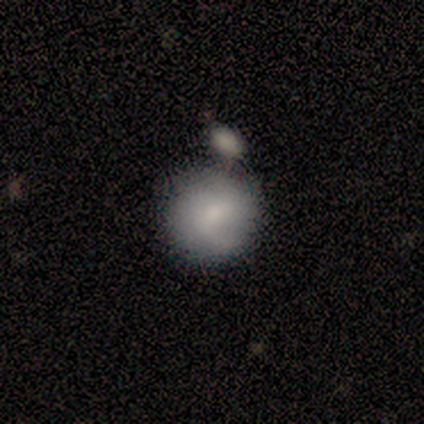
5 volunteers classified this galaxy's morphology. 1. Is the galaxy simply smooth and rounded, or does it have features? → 60% smooth, 20% featured or disk, 20% star or artifact.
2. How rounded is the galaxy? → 100% round, 0% in between, 0% cigar-shaped.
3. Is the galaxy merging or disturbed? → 50% minor disturbance, 25% none, 25% merger, 0% major disturbance.